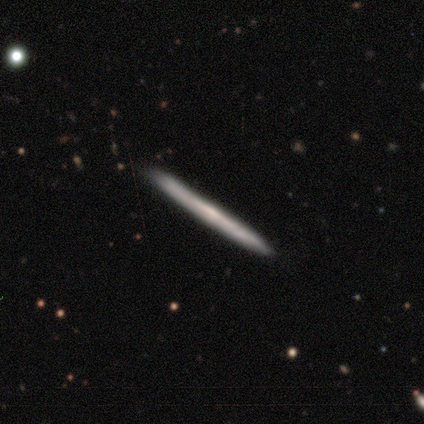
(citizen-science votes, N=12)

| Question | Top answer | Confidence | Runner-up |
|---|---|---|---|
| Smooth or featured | featured or disk | 83% | smooth (17%) |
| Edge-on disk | yes | 100% | — |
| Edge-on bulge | none | 80% | rounded (20%) |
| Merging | none | 92% | minor disturbance (8%) |